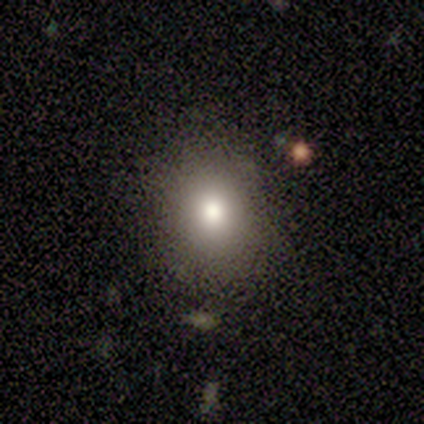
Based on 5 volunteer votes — This appears to be a smooth galaxy with no disk features (60%) that is round (67%). Merging: none (100%).